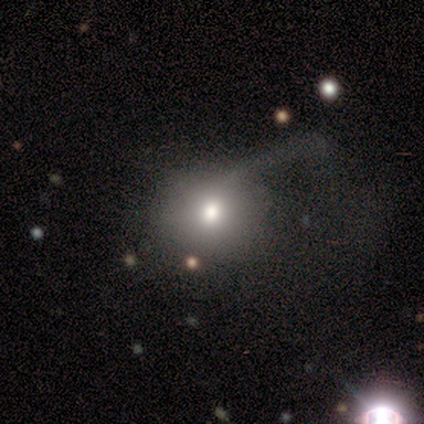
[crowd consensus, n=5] Smooth or featured? 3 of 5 (60%) said smooth. How rounded? 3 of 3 (100%) said round. Merging? 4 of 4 (100%) said major disturbance.